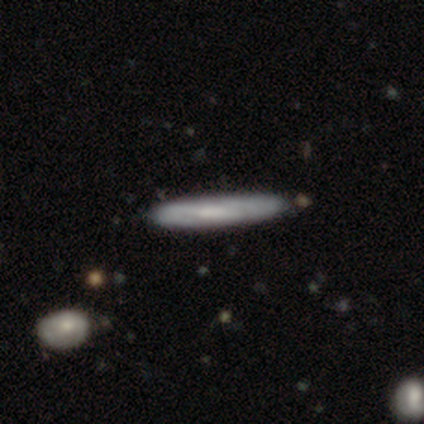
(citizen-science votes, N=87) A smooth galaxy with no disk features (55%) that is cigar-shaped (90%). Merging: none (81%).